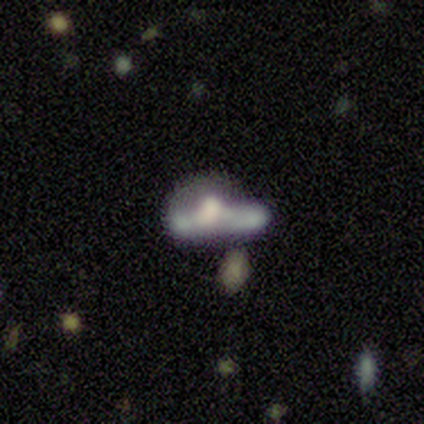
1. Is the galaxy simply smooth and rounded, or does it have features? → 60% smooth, 40% featured or disk, 0% star or artifact.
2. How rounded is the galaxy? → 67% in between, 33% cigar-shaped, 0% round.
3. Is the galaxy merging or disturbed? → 60% major disturbance, 20% none, 20% minor disturbance, 0% merger.